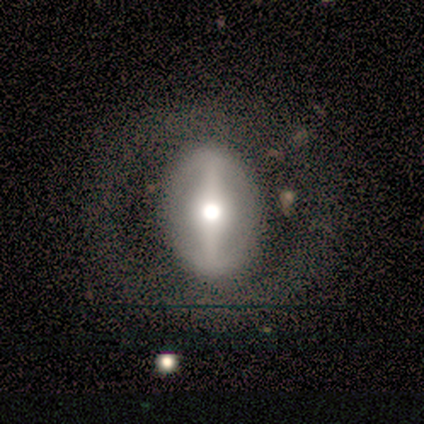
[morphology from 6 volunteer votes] A featured or disk galaxy (67%) with a strong bar (100%), no spiral arms (100%) and a moderate central bulge (75%). Merging: none (60%).